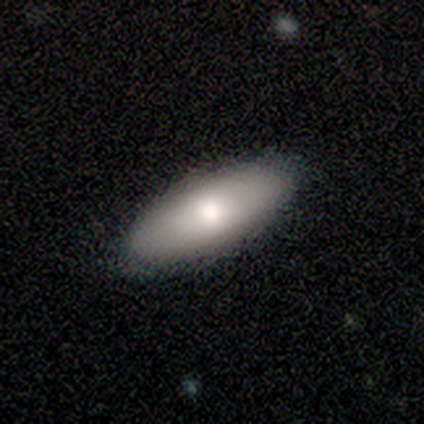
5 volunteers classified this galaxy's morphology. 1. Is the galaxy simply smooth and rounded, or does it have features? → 80% smooth, 20% featured or disk, 0% star or artifact.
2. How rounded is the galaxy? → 75% in between, 25% cigar-shaped, 0% round.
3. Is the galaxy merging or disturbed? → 80% none, 20% minor disturbance, 0% major disturbance, 0% merger.